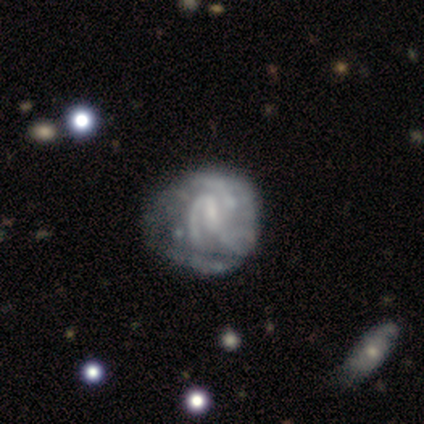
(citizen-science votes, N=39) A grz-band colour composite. It shows a featured or disk galaxy (92%) with a weak bar (64%), 2 (39%) tight (50%) spiral arms (78%) and a small central bulge (53%). Merging: minor disturbance (22%, tied with major disturbance).